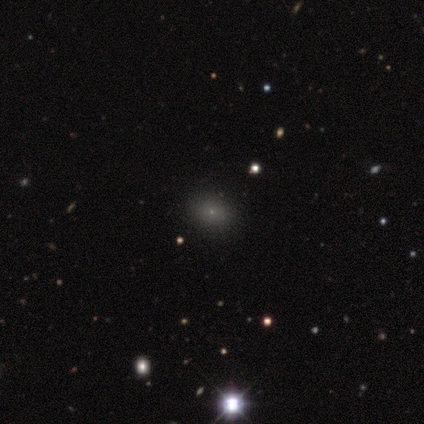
smooth_or_featured: smooth (p=0.80) [alt: star or artifact p=0.20]
how_rounded: in between (p=0.75) [alt: round p=0.25]
merging: none (p=0.75) [alt: minor disturbance p=0.25]